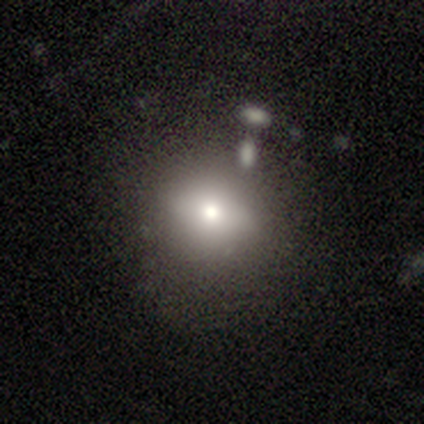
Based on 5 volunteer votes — smooth-or-featured: smooth: 80% | featured or disk: 20% | star or artifact: 0%
  how-rounded: round: 50% (tied) | in between: 50% (tied) | cigar-shaped: 0%
  merging: none: 60% | minor disturbance: 20% | major disturbance: 20% | merger: 0%